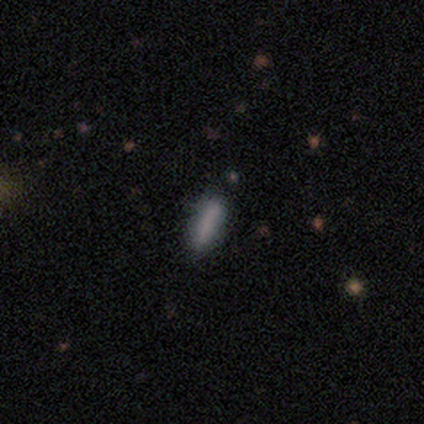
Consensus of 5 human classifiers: Smooth or featured? smooth (100%)
How rounded? cigar-shaped (80%)
Merging? none (100%)